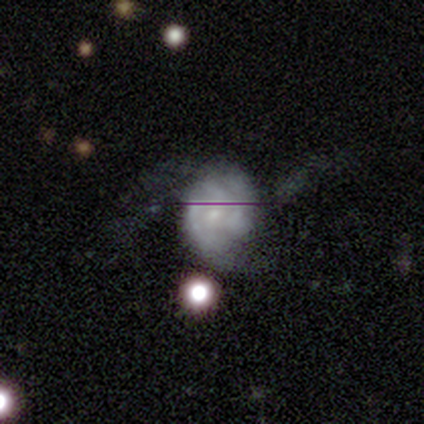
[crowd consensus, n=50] Volunteers were most divided on "spiral winding": medium: 37%, tight: 33%, loose: 30%. Remaining: edge-on disk — no (100%); spiral arms — yes (91%); bar — no (67%); smooth or featured — featured or disk (66%); bulge size — small (64%); merging — none (44%); spiral arm count — 3 (40%).